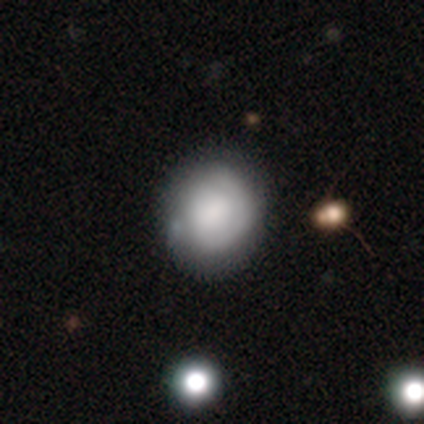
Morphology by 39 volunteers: Smooth or featured: smooth — 62% (featured or disk — 33%)
How rounded: round — 67% (in between — 29%)
Merging: none — 38% (minor disturbance — 19%)